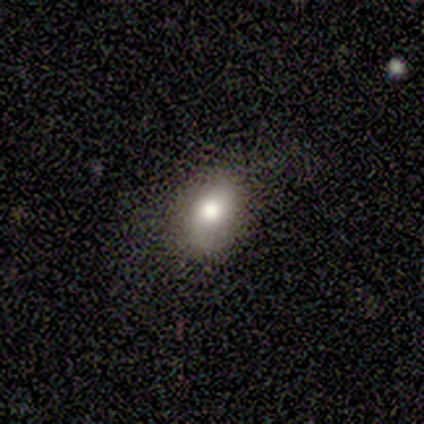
smooth_or_featured: smooth (p=0.60) [alt: featured or disk p=0.40]
how_rounded: in between (p=0.67) [alt: round p=0.33]
merging: none (p=0.80) [alt: minor disturbance p=0.20]